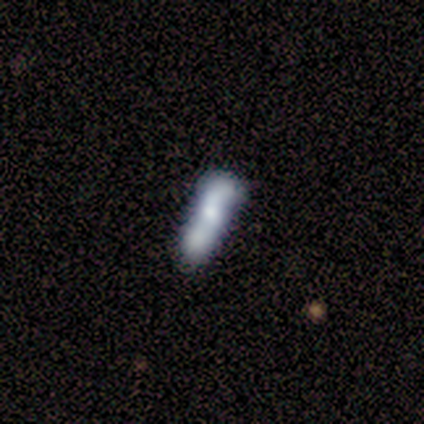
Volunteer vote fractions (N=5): A smooth galaxy with no disk features (60%) that is cigar-shaped (67%).

Vote fractions:
- Smooth or featured? smooth: 60% / featured or disk: 40% / star or artifact: 0%
- How rounded? cigar-shaped: 67% / in between: 33% / round: 0%
- Merging? merger: 60% / none: 20% / minor disturbance: 20% / major disturbance: 0%